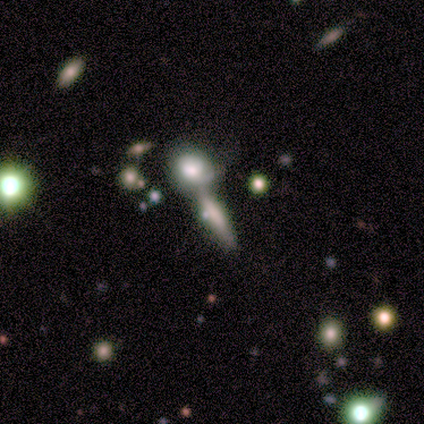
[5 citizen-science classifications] Smooth or featured: smooth — 80% (featured or disk — 20%)
How rounded: cigar-shaped — 100%
Merging: minor disturbance — 40% (tied with merger — 40%)